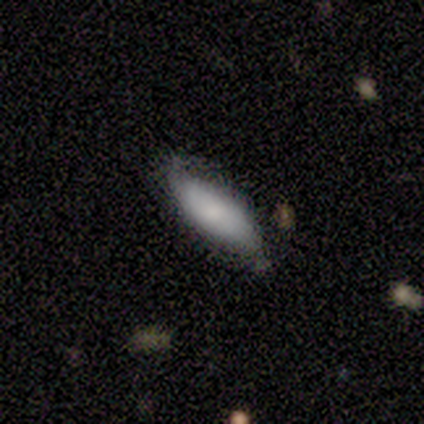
smooth_or_featured: smooth (p=0.60) [alt: featured or disk p=0.40]
how_rounded: round (p=0.33) [tied with: in between p=0.33, cigar-shaped p=0.33]
merging: none (p=0.60) [alt: major disturbance p=0.40]